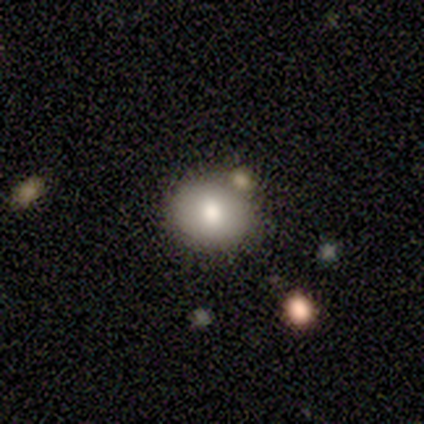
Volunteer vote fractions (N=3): Overall: smooth (67%; star or artifact 33%). How rounded: round (100%). Merging: none (50%, tied with merger).